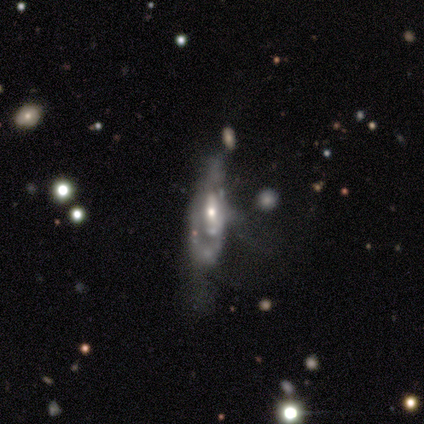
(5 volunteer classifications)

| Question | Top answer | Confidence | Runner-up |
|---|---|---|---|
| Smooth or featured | featured or disk | 100% | — |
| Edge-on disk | no | 100% | — |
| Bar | no | 60% | weak (40%) |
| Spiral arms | no | 60% | yes (40%) |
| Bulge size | moderate | 60% | small (40%) |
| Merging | none | 40% | tied: major disturbance (40%) |